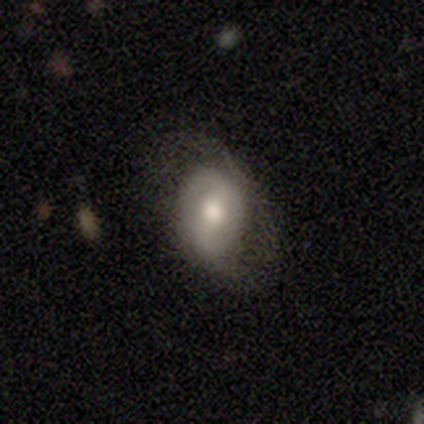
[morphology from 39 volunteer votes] A featured or disk galaxy (64%) with a weak bar (48%), 2 (76%) tight (41%) spiral arms (81%) and a moderate central bulge (62%). Merging: none (47%).